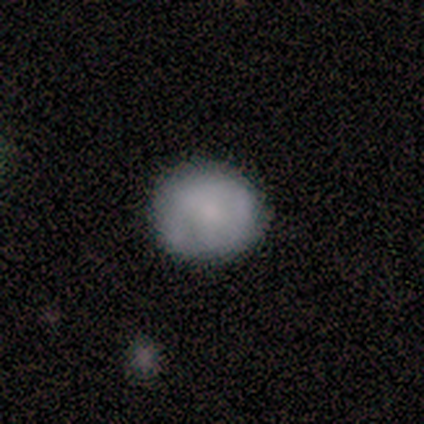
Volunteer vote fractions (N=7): Smooth or featured: smooth — 100%
How rounded: round — 71% (in between — 29%)
Merging: none — 100%